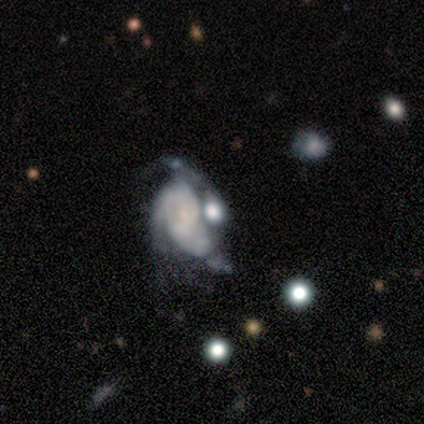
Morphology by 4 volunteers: smooth_or_featured: featured or disk (p=0.75) [alt: smooth p=0.25]
disk_edge_on: no (p=1.00)
bar: no (p=1.00)
has_spiral_arms: yes (p=1.00)
spiral_winding: tight (p=0.33) [tied with: medium p=0.33, loose p=0.33]
spiral_arm_count: can't tell (p=0.67) [alt: 2 p=0.33]
bulge_size: small (p=1.00)
merging: merger (p=0.75) [alt: major disturbance p=0.25]